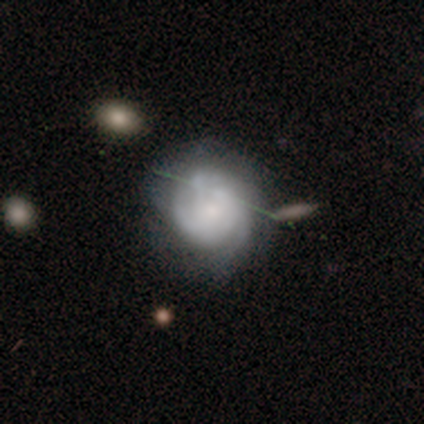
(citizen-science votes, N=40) This is likely a featured or disk galaxy (62%). It is clearly not viewed edge-on (100%). Bar: clearly no (80%). Spiral arm pattern: clearly yes (80%). Spiral arm count: likely can't tell (65%). Spiral winding: likely tight (60%). Central bulge: possibly small (52%). Merging: likely none (62%).